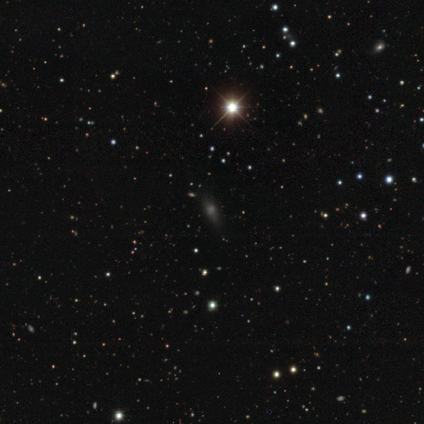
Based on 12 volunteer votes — This is possibly a star or artifact rather than a galaxy (50%).